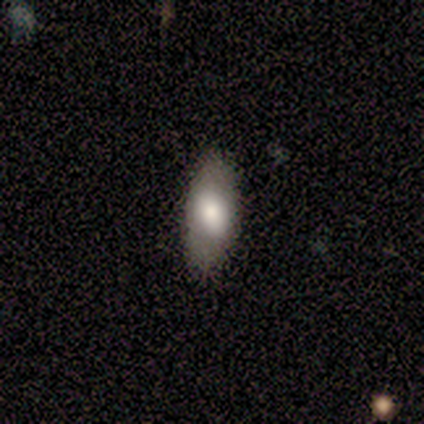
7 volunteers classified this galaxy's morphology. A smooth galaxy with no disk features (100%) that is in between round and cigar-shaped (71%). Merging: none (71%).